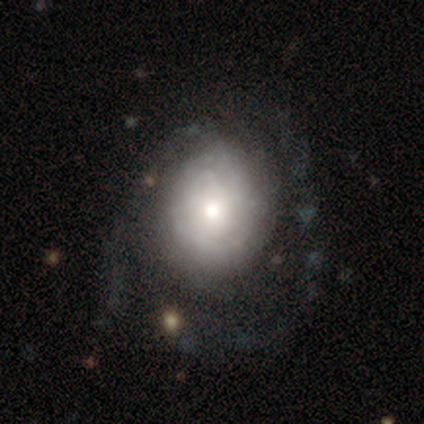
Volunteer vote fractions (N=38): This is likely a featured or disk galaxy (71%). It is clearly not viewed edge-on (96%). Bar: clearly no (88%). Spiral arm pattern: clearly yes (85%). Spiral arm count: possibly can't tell (55%). Spiral winding: likely tight (77%). Central bulge: likely moderate (62%). Merging: possibly none (46%).